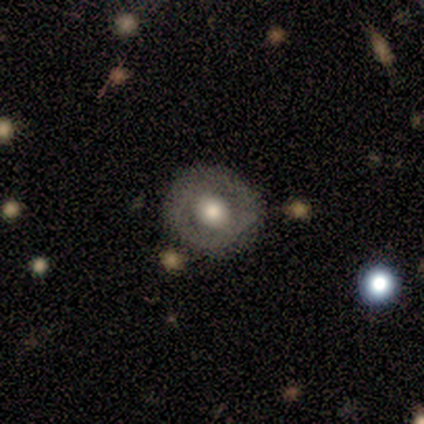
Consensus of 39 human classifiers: This appears to be a featured or disk galaxy (49%) with no bar (67%), no spiral arms (83%) and a moderate central bulge (56%). Merging: none (76%).